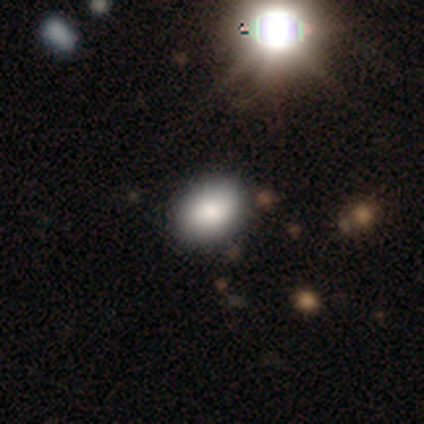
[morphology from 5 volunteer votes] smooth 60%, star or artifact 40%, featured or disk 0%. Down the decision tree: how rounded — in between (100%); merging — none (67%).